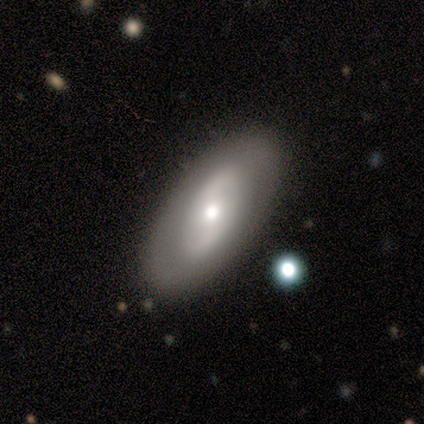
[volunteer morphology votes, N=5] A smooth galaxy with no disk features (60%) that is in between round and cigar-shaped (100%).

Vote fractions:
- Smooth or featured? smooth: 60% / featured or disk: 40% / star or artifact: 0%
- How rounded? in between: 100% / round: 0% / cigar-shaped: 0%
- Merging? none: 80% / major disturbance: 20% / minor disturbance: 0% / merger: 0%